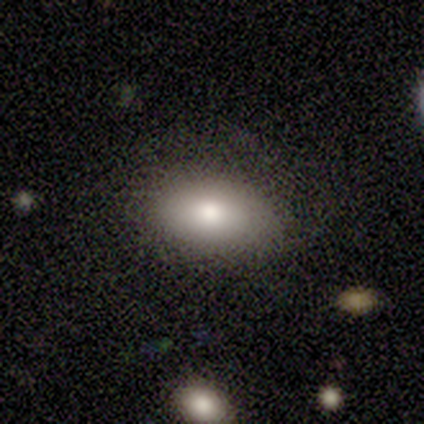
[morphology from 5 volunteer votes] This is clearly a smooth galaxy (80%). How rounded: clearly in between (100%). Merging: clearly none (100%).